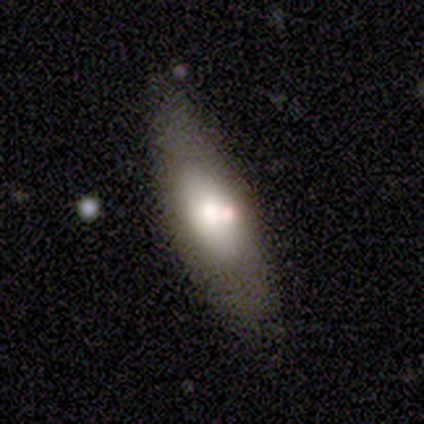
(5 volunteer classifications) Morphology: type=smooth (60%); roundness=in between (67%); merging=none (100%).